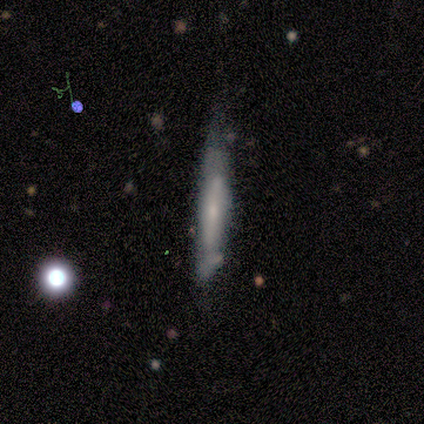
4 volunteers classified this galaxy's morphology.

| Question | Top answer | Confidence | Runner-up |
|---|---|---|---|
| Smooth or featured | smooth | 50% | tied: featured or disk (50%) |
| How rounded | cigar-shaped | 100% | — |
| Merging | none | 75% | minor disturbance (25%) |